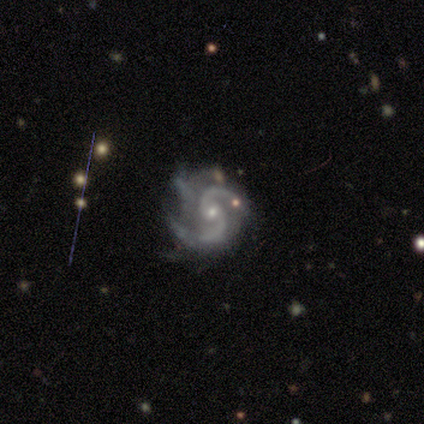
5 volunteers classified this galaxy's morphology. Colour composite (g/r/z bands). It shows a featured or disk galaxy (80%) with no bar (100%), 2 (75%) medium (75%) spiral arms (100%) and a small central bulge (100%). Merging: major disturbance (50%).